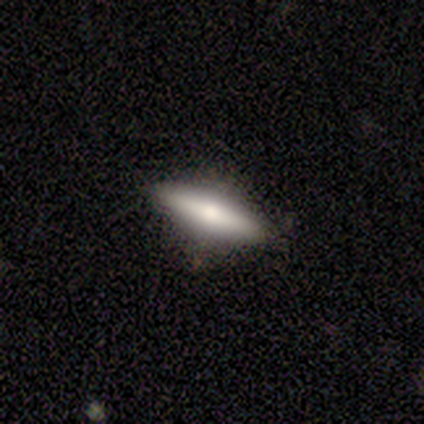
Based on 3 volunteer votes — smooth_or_featured: featured or disk (p=0.67) [alt: smooth p=0.33]
disk_edge_on: yes (p=1.00)
edge_on_bulge: rounded (p=1.00)
merging: none (p=1.00)